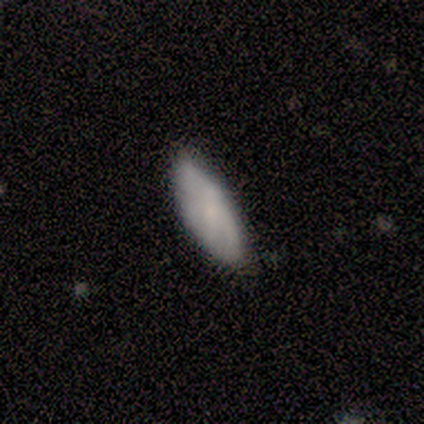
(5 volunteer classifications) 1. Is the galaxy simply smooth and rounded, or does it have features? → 100% smooth, 0% featured or disk, 0% star or artifact.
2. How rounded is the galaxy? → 80% in between, 20% cigar-shaped, 0% round.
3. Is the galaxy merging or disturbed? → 100% none, 0% minor disturbance, 0% major disturbance, 0% merger.